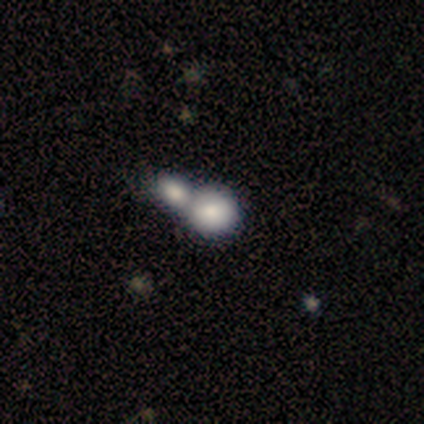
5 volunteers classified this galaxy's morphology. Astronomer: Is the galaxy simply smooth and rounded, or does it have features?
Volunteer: smooth — 80%.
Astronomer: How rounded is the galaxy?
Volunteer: round — 100%.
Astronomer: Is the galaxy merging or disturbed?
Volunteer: merger — 60%.